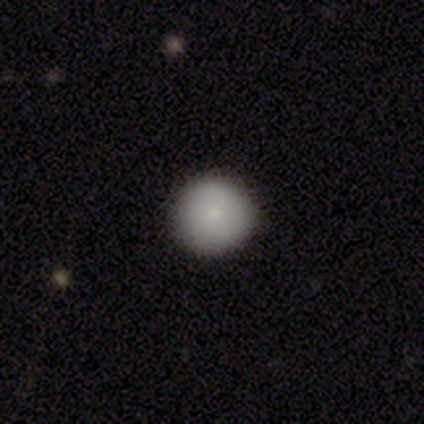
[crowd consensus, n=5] This is clearly a smooth galaxy (100%). How rounded: clearly round (100%). Merging: clearly none (80%).